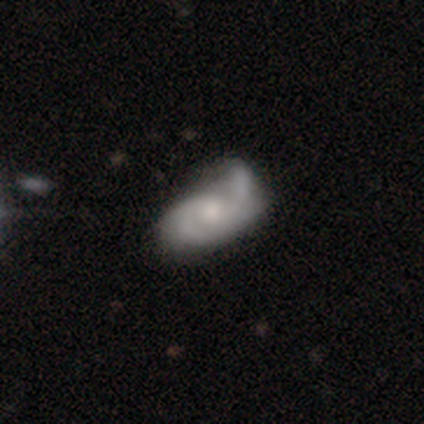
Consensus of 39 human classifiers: smooth_or_featured: featured or disk (p=0.74) [alt: smooth p=0.23]
disk_edge_on: no (p=0.93) [alt: yes p=0.07]
bar: no (p=0.67) [alt: weak p=0.33]
has_spiral_arms: yes (p=0.96) [alt: no p=0.04]
spiral_winding: medium (p=0.38) [tied with: loose p=0.38]
spiral_arm_count: 2 (p=0.58) [alt: 1 p=0.27]
bulge_size: small (p=0.56) [alt: moderate p=0.33]
merging: major disturbance (p=0.34) [alt: merger p=0.24]